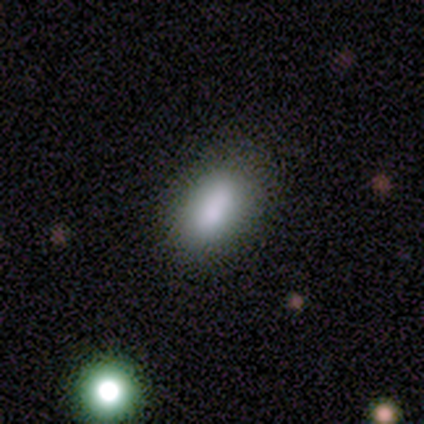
smooth-or-featured: smooth: 75% | star or artifact: 15% | featured or disk: 10%
  how-rounded: in between: 97% | cigar-shaped: 3% | round: 0%
  merging: none: 76% | minor disturbance: 15% | merger: 9% | major disturbance: 0%